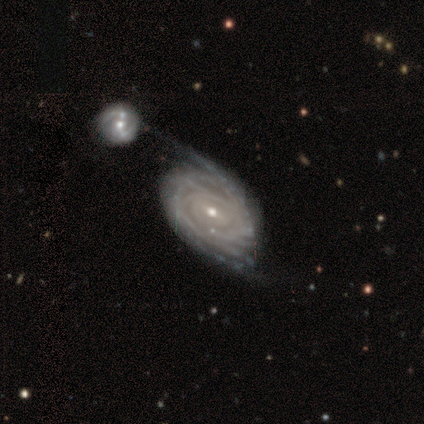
smooth-or-featured: featured or disk: 97% | smooth: 2% | star or artifact: 2%
  disk-edge-on: no: 97% | yes: 3%
    bar: weak: 59% | no: 27% | strong: 14%
    has-spiral-arms: yes: 96% | no: 4%
      spiral-winding: tight: 76% | medium: 19% | loose: 5%
      spiral-arm-count: can't tell: 36% | more than 4: 25% | 2: 22% | 4: 9% | 3: 7% | 1: 0%
    bulge-size: small: 65% | moderate: 31% | large: 2% | none: 2% | dominant: 0%
  merging: merger: 40% | none: 14% | major disturbance: 13% | minor disturbance: 9%